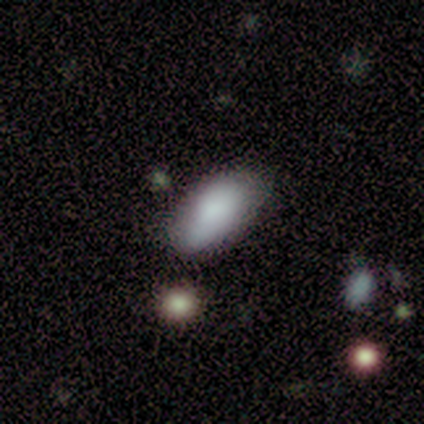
A smooth galaxy with no disk features (80%) that is in between round and cigar-shaped (75%).

Vote fractions:
- Smooth or featured? smooth: 80% / featured or disk: 20% / star or artifact: 0%
- How rounded? in between: 75% / round: 25% / cigar-shaped: 0%
- Merging? none: 60% / minor disturbance: 20% / major disturbance: 20% / merger: 0%